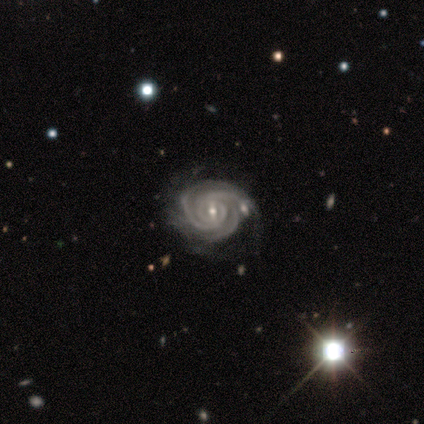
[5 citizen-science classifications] Morphology: type=featured or disk (100%); edge-on=no (100%); bar=weak (100%); spiral arms=yes (100%); winding=medium (60%); arm count=3 (60%); bulge=small (60%); merging=none (40%, tied with merger).